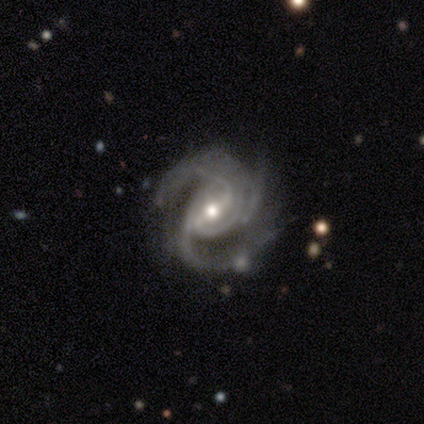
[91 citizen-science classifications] Smooth or featured?
  - featured or disk: 87% *
  - star or artifact: 9%
  - smooth: 4%
Edge-on disk?
  - no: 97% *
  - yes: 3%
Bar?
  - weak: 45% *
  - strong: 44%
  - no: 10%
Spiral arms?
  - yes: 100% *
  - no: 0%
Spiral winding?
  - medium: 57% *
  - tight: 34%
  - loose: 9%
Spiral arm count?
  - 3: 60% *
  - 2: 25%
  - can't tell: 8%
  - 4: 6%
  - more than 4: 1%
  - 1: 0%
Bulge size?
  - moderate: 56% *
  - small: 39%
  - large: 5%
  - dominant: 0%
  - none: 0%
Merging?
  - none: 55% *
  - minor disturbance: 30%
  - major disturbance: 12%
  - merger: 2%